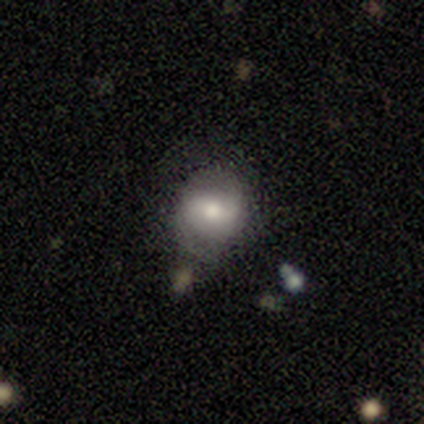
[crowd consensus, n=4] This appears to be a smooth galaxy with no disk features (50%, tied with featured or disk) that is round (50%, tied with in between). Merging: none (50%).